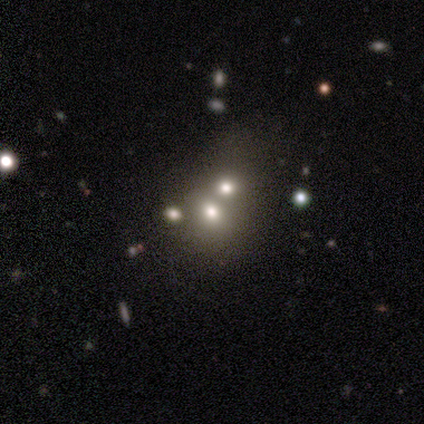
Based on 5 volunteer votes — This appears to be a smooth galaxy with no disk features (60%) that is round (67%). Merging: merger (100%).